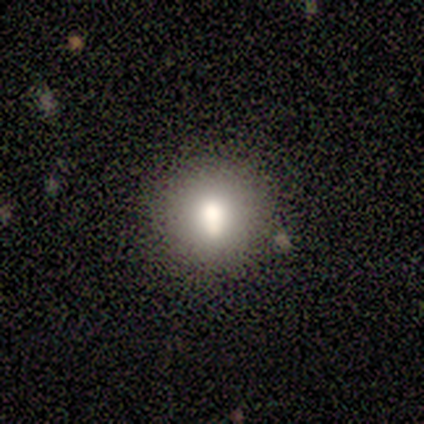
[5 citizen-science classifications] Smooth or featured?
  - smooth: 60% *
  - star or artifact: 40%
  - featured or disk: 0%
How rounded?
  - round: 100% *
  - in between: 0%
  - cigar-shaped: 0%
Merging?
  - none: 100% *
  - minor disturbance: 0%
  - major disturbance: 0%
  - merger: 0%